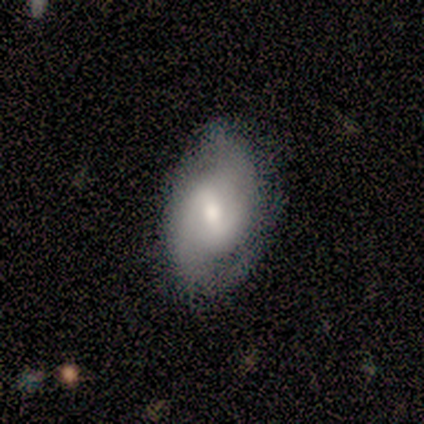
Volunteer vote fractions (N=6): A featured or disk galaxy (50%) with a weak bar (100%), 2 (100%) tight (50%, tied with medium) spiral arms (100%) and a moderate central bulge (100%). Merging: none (80%).